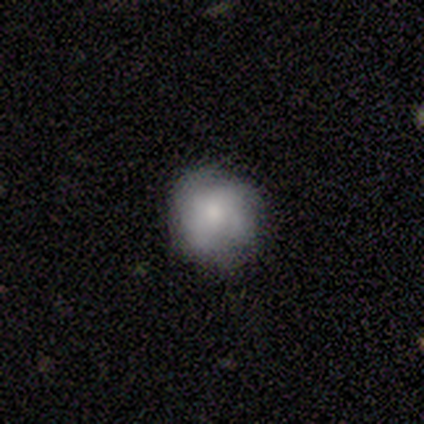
Morphology: type=smooth (60%); roundness=round (83%); merging=none (50%).